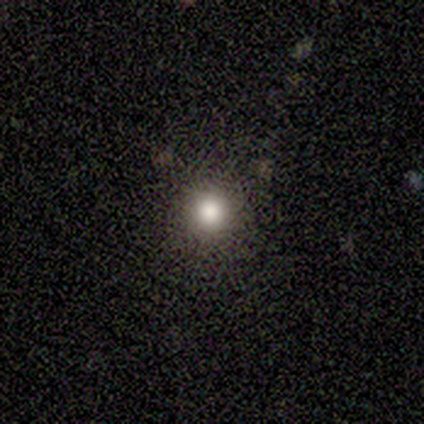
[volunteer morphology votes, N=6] smooth 83%, featured or disk 17%, star or artifact 0%. Down the decision tree: how rounded — round (100%); merging — none (83%).